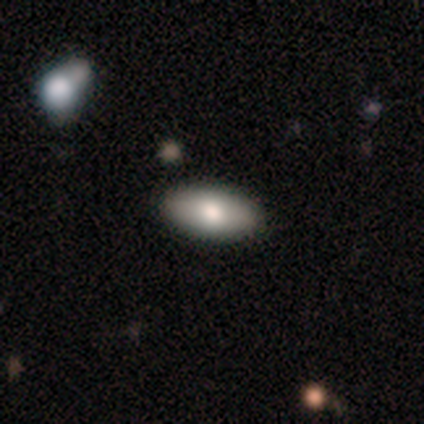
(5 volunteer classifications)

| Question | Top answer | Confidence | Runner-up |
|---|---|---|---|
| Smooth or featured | smooth | 80% | featured or disk (20%) |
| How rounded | in between | 100% | — |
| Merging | none | 80% | minor disturbance (20%) |